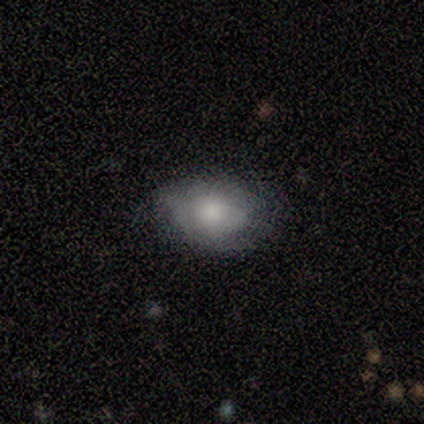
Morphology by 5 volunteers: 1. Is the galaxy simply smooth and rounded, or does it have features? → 60% smooth, 40% featured or disk, 0% star or artifact.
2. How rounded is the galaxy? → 67% in between, 33% round, 0% cigar-shaped.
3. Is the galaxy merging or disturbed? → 60% none, 20% minor disturbance, 20% major disturbance, 0% merger.